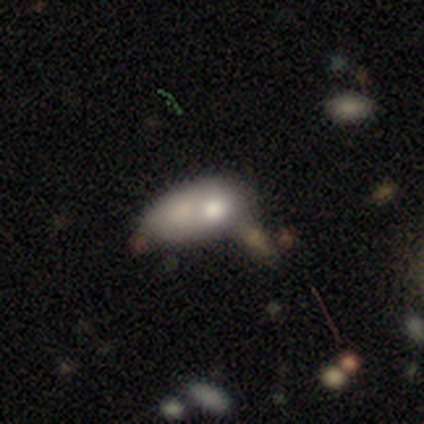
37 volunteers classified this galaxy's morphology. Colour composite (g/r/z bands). It shows a smooth galaxy with no disk features (62%) that is in between round and cigar-shaped (91%). Merging: merger (36%).